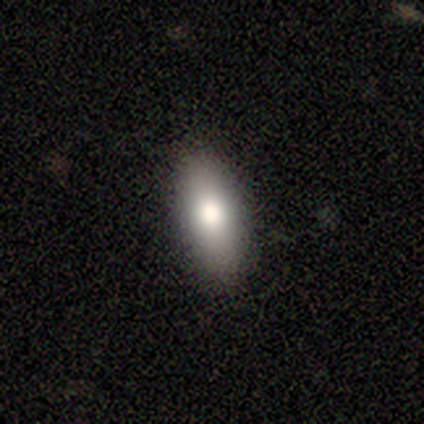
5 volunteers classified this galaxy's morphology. A smooth galaxy with no disk features (80%) that is in between round and cigar-shaped (100%).

Vote fractions:
- Smooth or featured? smooth: 80% / featured or disk: 20% / star or artifact: 0%
- How rounded? in between: 100% / round: 0% / cigar-shaped: 0%
- Merging? none: 80% / minor disturbance: 20% / major disturbance: 0% / merger: 0%